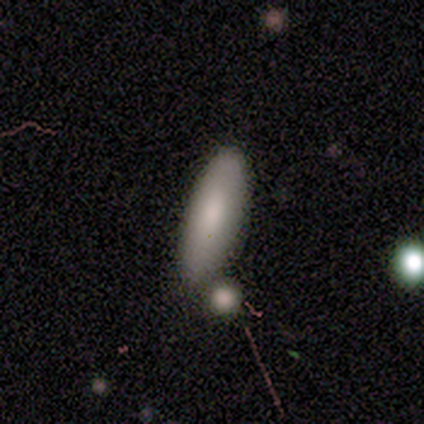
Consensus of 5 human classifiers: A smooth galaxy with no disk features (100%) that is in between round and cigar-shaped (60%). Merging: none (60%).